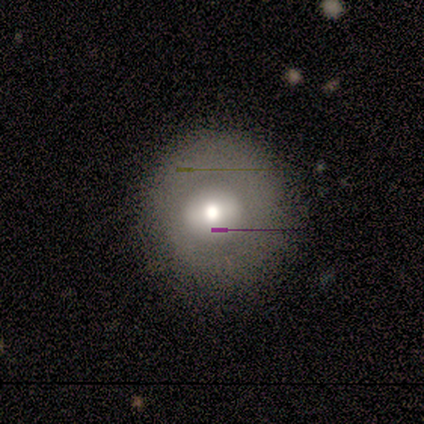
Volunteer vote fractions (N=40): Smooth or featured?
  - smooth: 52% *
  - featured or disk: 42%
  - star or artifact: 5%
How rounded?
  - round: 95% *
  - in between: 5%
  - cigar-shaped: 0%
Merging?
  - none: 89% *
  - minor disturbance: 8%
  - major disturbance: 3%
  - merger: 0%